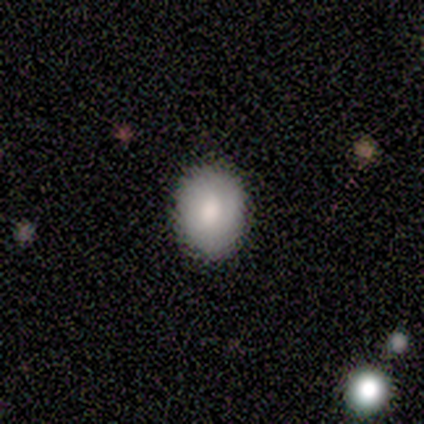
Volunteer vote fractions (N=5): Volunteers were most divided on "how rounded": in between: 80%, round: 20%, cigar-shaped: 0%. More confident: smooth or featured — smooth (100%); merging — none (100%).